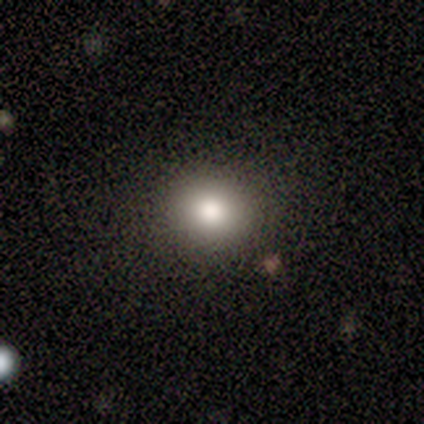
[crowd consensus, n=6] Morphology: type=smooth (67%); roundness=round (50%, tied with in between); merging=none (75%).